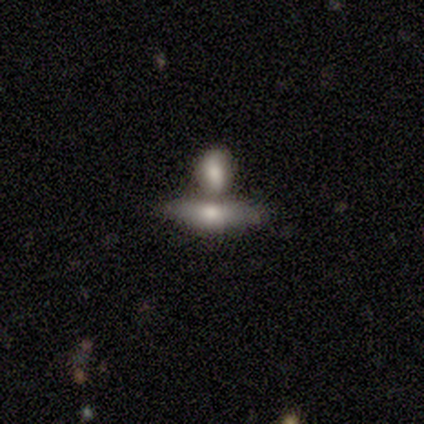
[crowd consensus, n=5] This appears to be a smooth galaxy with no disk features (60%) that is in between round and cigar-shaped (67%). Merging: merger (80%).